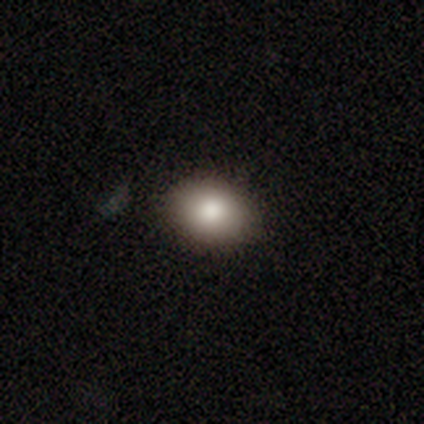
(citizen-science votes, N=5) This is clearly a smooth galaxy (80%). How rounded: possibly round (50%, tied with in between). Merging: clearly none (100%).